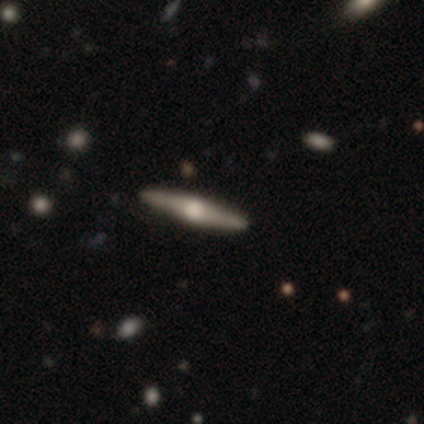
Q: Smooth or featured?
A: featured or disk (80%); runner-up: smooth (20%)
Q: Edge-on disk?
A: yes (100%)
Q: Edge-on bulge?
A: rounded (100%)
Q: Merging?
A: none (100%)